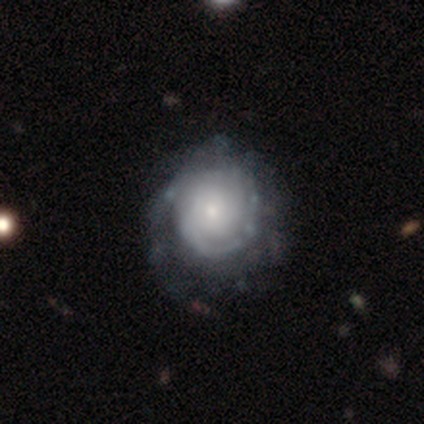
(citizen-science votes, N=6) This is clearly a featured or disk galaxy (83%). It is clearly not viewed edge-on (100%). Bar: clearly no (80%). Spiral arm pattern: clearly yes (100%). Spiral arm count: likely can't tell (60%). Spiral winding: marginally tight (40%, tied with medium). Central bulge: clearly small (80%). Merging: possibly none (50%, tied with major disturbance).